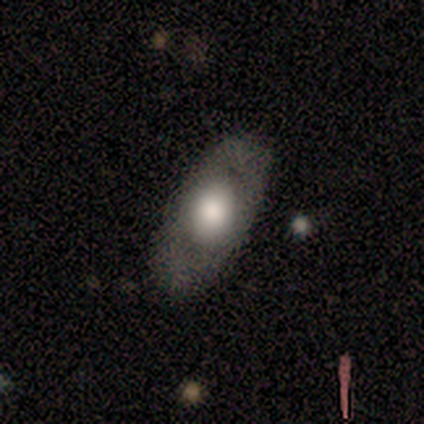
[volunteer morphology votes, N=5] type=smooth (40%, tied with featured or disk); roundness=in between (100%); merging=none (75%).